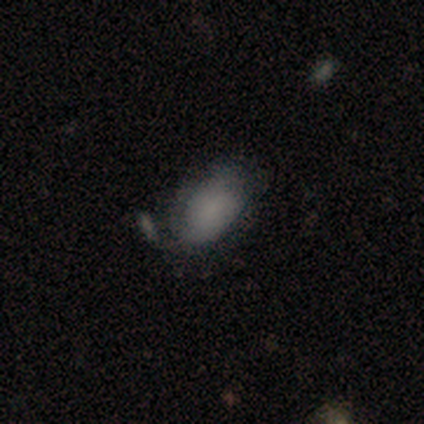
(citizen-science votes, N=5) This is likely a smooth galaxy (60%). How rounded: clearly in between (100%). Merging: likely none (60%).